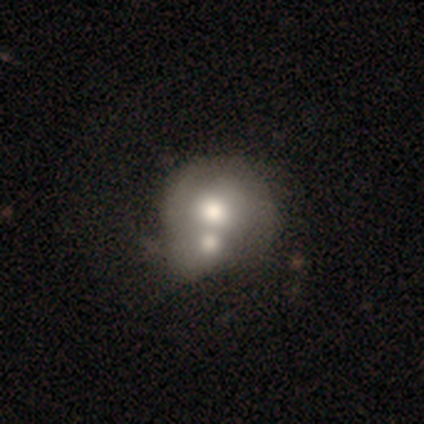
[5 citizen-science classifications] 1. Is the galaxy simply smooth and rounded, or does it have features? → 60% featured or disk, 40% smooth, 0% star or artifact.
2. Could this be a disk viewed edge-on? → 100% no, 0% yes.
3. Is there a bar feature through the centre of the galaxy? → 100% no, 0% strong, 0% weak.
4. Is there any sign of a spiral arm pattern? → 100% no, 0% yes.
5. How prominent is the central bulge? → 67% large, 33% moderate, 0% dominant, 0% small, 0% none.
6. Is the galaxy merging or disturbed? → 100% merger, 0% none, 0% minor disturbance, 0% major disturbance.